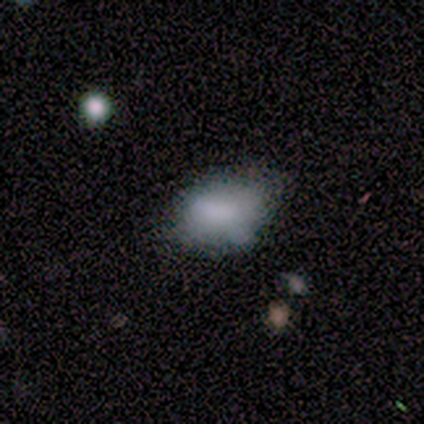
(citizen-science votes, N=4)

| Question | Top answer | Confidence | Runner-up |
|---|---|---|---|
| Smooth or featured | smooth | 50% | featured or disk (25%) |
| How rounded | in between | 100% | — |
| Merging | none | 100% | — |